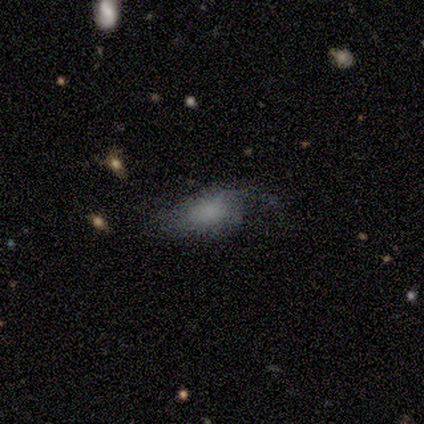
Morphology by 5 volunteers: Smooth or featured?
  - featured or disk: 60% *
  - smooth: 40%
  - star or artifact: 0%
Edge-on disk?
  - no: 100% *
  - yes: 0%
Bar?
  - no: 67% *
  - weak: 33%
  - strong: 0%
Spiral arms?
  - yes: 67% *
  - no: 33%
Spiral winding?
  - loose: 100% *
  - tight: 0%
  - medium: 0%
Spiral arm count?
  - 1: 100% *
  - 2: 0%
  - 3: 0%
  - 4: 0%
  - more than 4: 0%
  - can't tell: 0%
Bulge size?
  - none: 67% *
  - small: 33%
  - dominant: 0%
  - large: 0%
  - moderate: 0%
Merging?
  - none: 40% * (tied)
  - major disturbance: 40% * (tied)
  - minor disturbance: 20%
  - merger: 0%